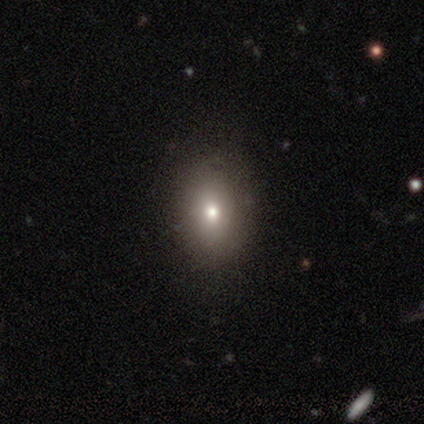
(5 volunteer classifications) Smooth or featured?
  - smooth: 60% *
  - featured or disk: 40%
  - star or artifact: 0%
How rounded?
  - round: 67% *
  - in between: 33%
  - cigar-shaped: 0%
Merging?
  - none: 80% *
  - major disturbance: 20%
  - minor disturbance: 0%
  - merger: 0%